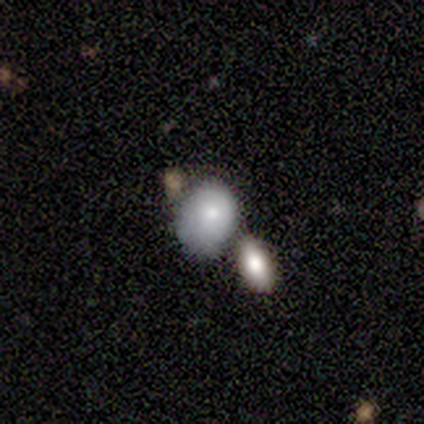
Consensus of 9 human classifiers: Overall: smooth (56%; featured or disk 33%). How rounded: in between (60%; round 40%). Merging: merger (38%; none 25%).